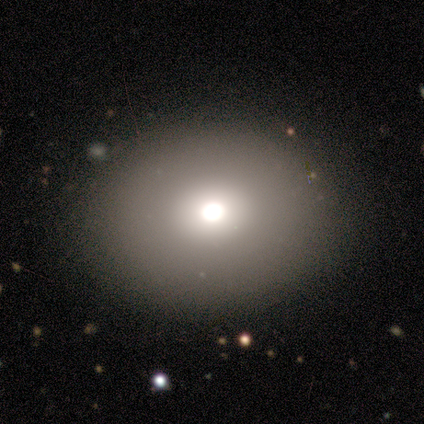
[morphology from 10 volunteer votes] smooth 100%, featured or disk 0%, star or artifact 0%. Down the decision tree: how rounded — round (60%); merging — none (80%).